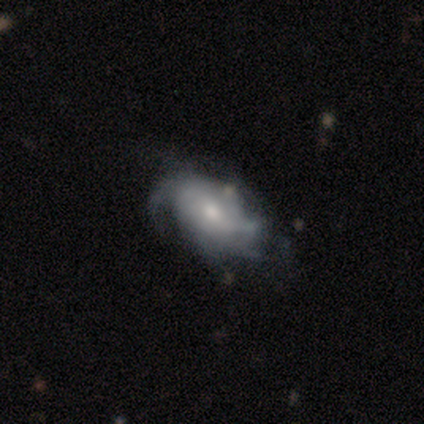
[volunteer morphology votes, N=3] smooth_or_featured: featured or disk (p=0.67) [alt: star or artifact p=0.33]
disk_edge_on: no (p=1.00)
bar: no (p=1.00)
has_spiral_arms: yes (p=1.00)
spiral_winding: tight (p=0.50) [tied with: medium p=0.50]
spiral_arm_count: 4 (p=0.50) [tied with: can't tell p=0.50]
bulge_size: moderate (p=0.50) [tied with: small p=0.50]
merging: none (p=0.50) [tied with: minor disturbance p=0.50]